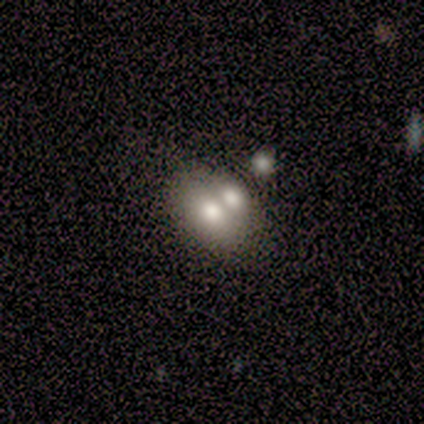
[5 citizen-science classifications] Overall: smooth (60%; featured or disk 20%). How rounded: in between (67%; round 33%). Merging: merger (75%).